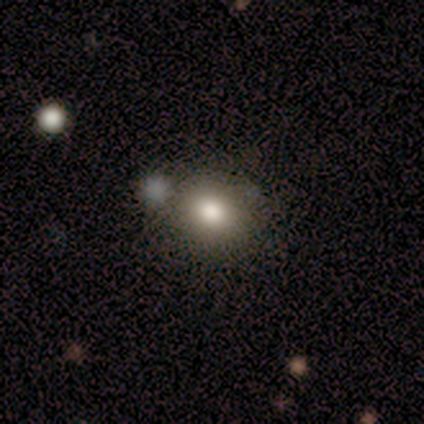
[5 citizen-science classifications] featured or disk 80%, smooth 20%, star or artifact 0%. Down the decision tree: edge-on disk — no (100%); bar — no (100%); spiral arms — no (100%); bulge size — large (50%, tied with moderate); merging — none (100%).